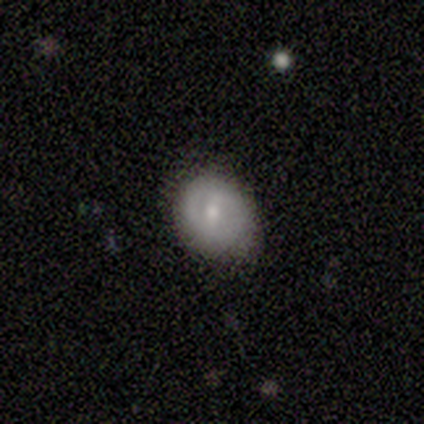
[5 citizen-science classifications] This appears to be a smooth galaxy with no disk features (80%) that is round (75%). Merging: none (80%).